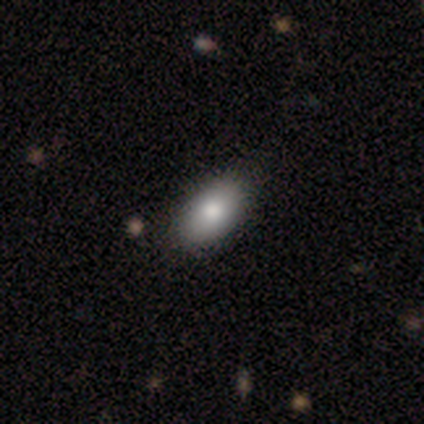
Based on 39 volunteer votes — Morphology: type=smooth (79%); roundness=in between (100%); merging=none (89%).